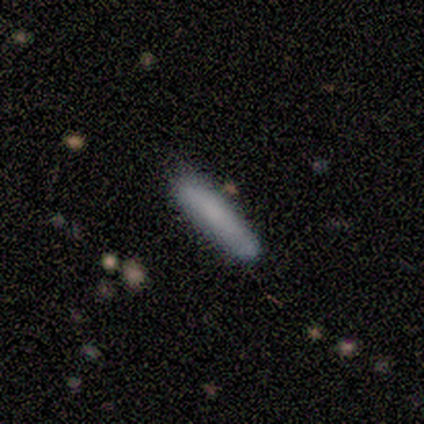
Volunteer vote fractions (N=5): This is clearly a smooth galaxy (80%). How rounded: clearly cigar-shaped (100%). Merging: clearly none (100%).